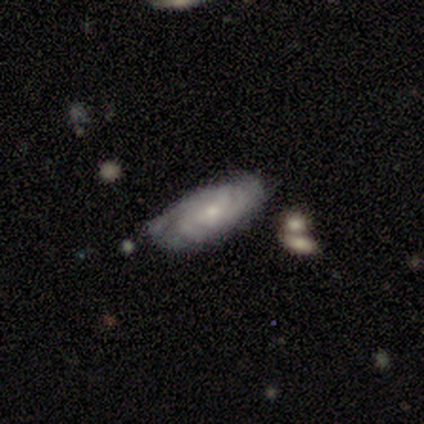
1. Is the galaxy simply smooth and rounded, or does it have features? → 83% featured or disk, 17% smooth, 0% star or artifact.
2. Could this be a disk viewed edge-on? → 100% no, 0% yes.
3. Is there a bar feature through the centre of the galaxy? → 100% no, 0% strong, 0% weak.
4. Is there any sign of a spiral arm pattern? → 100% yes, 0% no.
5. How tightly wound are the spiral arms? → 80% tight, 20% medium, 0% loose.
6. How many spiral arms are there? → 80% can't tell, 20% 4, 0% 1, 0% 2, 0% 3, 0% more than 4.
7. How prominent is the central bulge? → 80% small, 20% large, 0% dominant, 0% moderate, 0% none.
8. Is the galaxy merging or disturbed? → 67% minor disturbance, 33% none, 0% major disturbance, 0% merger.